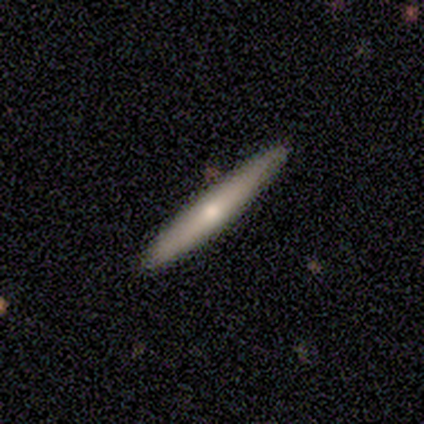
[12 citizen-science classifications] Morphology: type=smooth (50%, tied with featured or disk); roundness=cigar-shaped (83%); merging=none (100%).